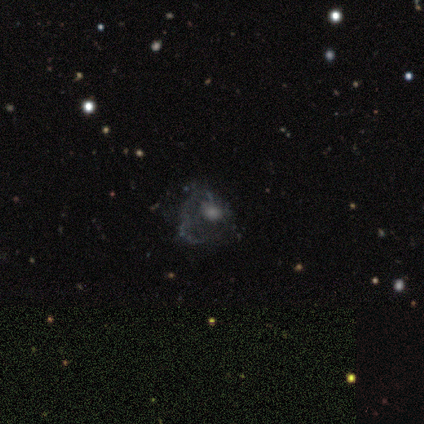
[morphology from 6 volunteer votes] Overall: smooth (50%, tied with featured or disk). How rounded: in between (100%). Merging: major disturbance (50%; none 33%).